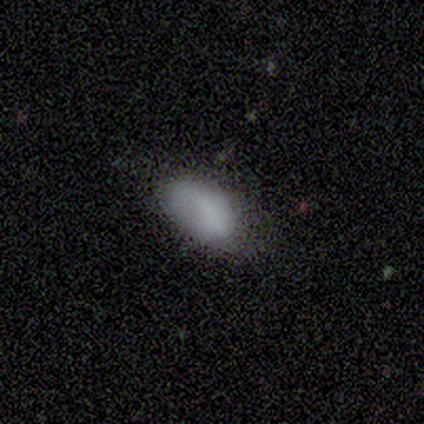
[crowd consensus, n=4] smooth-or-featured: smooth: 100% | featured or disk: 0% | star or artifact: 0%
  how-rounded: in between: 100% | round: 0% | cigar-shaped: 0%
  merging: minor disturbance: 50% | none: 25% | major disturbance: 25% | merger: 0%